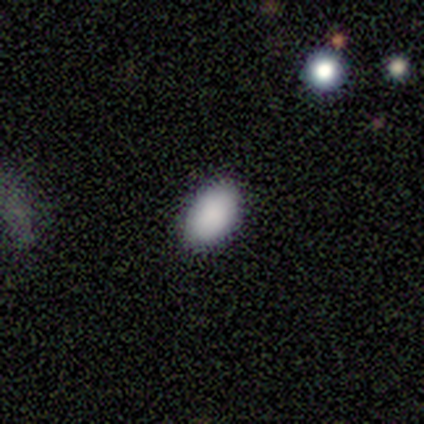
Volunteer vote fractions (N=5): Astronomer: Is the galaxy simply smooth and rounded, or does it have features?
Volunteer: smooth — 80%.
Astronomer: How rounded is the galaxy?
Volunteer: in between — 100%.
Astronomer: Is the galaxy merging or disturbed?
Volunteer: none — 100%.